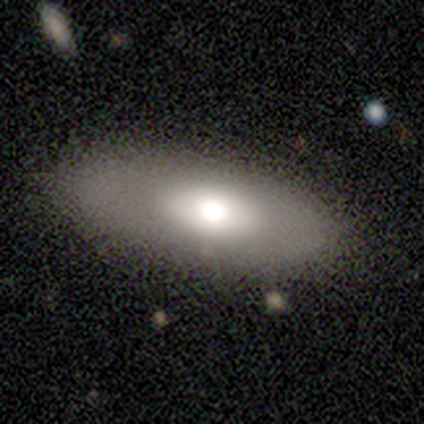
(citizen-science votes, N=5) A featured or disk galaxy (60%) with no bar (100%), no spiral arms (100%) and a large central bulge (50%, tied with moderate).

Vote fractions:
- Smooth or featured? featured or disk: 60% / smooth: 40% / star or artifact: 0%
- Edge-on disk? no: 67% / yes: 33%
- Bar? no: 100% / strong: 0% / weak: 0%
- Spiral arms? no: 100% / yes: 0%
- Bulge size? large: 50% (tied) / moderate: 50% (tied) / dominant: 0% / small: 0% / none: 0%
- Merging? none: 100% / minor disturbance: 0% / major disturbance: 0% / merger: 0%